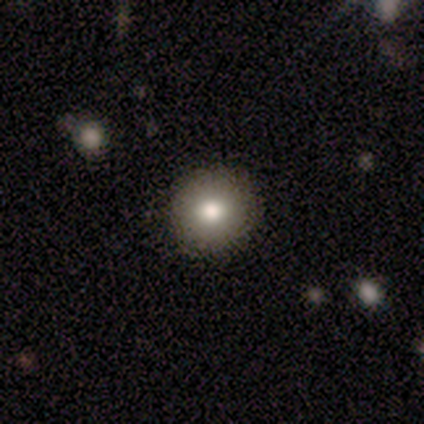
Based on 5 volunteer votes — smooth_or_featured: smooth (p=0.80) [alt: star or artifact p=0.20]
how_rounded: round (p=1.00)
merging: none (p=1.00)